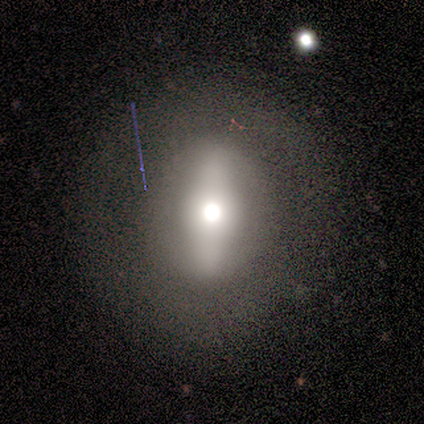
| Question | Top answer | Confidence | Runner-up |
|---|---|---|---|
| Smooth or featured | smooth | 80% | featured or disk (20%) |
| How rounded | cigar-shaped | 50% | round (25%) |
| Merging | none | 80% | minor disturbance (20%) |